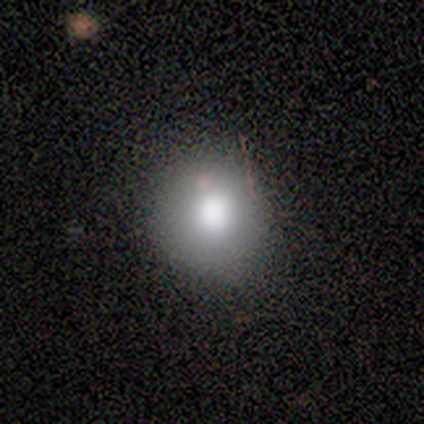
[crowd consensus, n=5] Overall: smooth (100%). How rounded: round (100%). Merging: none (100%).